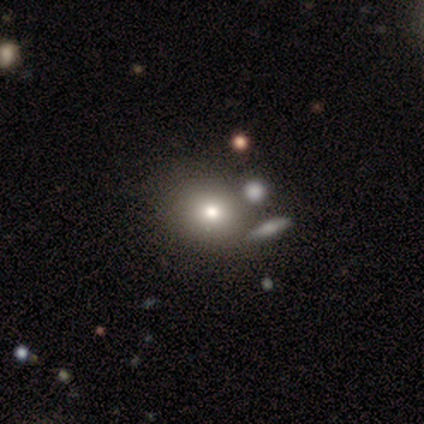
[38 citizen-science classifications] Morphology: type=smooth (66%); roundness=round (88%); merging=none (70%).